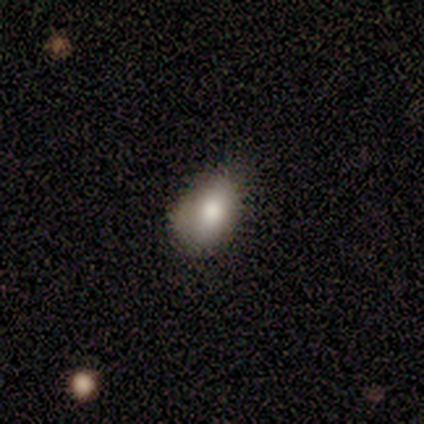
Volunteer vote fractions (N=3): Smooth or featured? 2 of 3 (67%) said smooth. How rounded? 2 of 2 (100%) said in between. Merging? 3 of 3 (100%) said none.